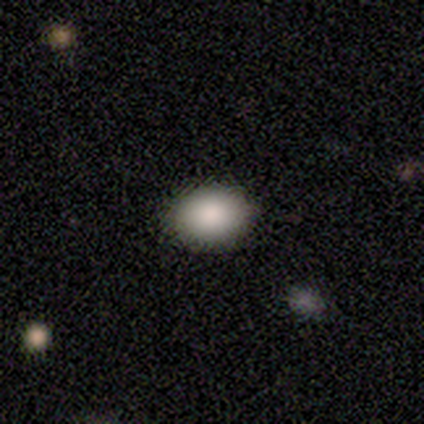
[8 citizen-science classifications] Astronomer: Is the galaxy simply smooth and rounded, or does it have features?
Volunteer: smooth — 88%.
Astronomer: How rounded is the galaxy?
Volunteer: in between — 86%.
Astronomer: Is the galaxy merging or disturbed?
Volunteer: none — 100%.